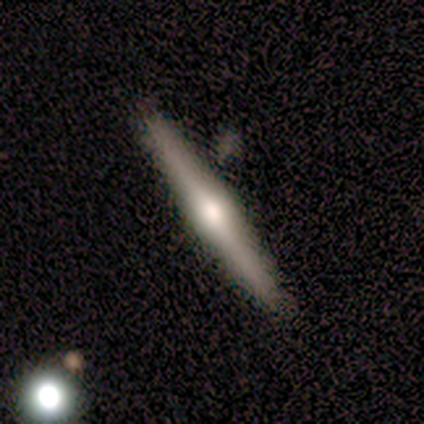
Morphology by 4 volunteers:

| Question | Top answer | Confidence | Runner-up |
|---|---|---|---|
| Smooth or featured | smooth | 50% | tied: featured or disk (50%) |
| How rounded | cigar-shaped | 100% | — |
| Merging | none | 75% | minor disturbance (25%) |